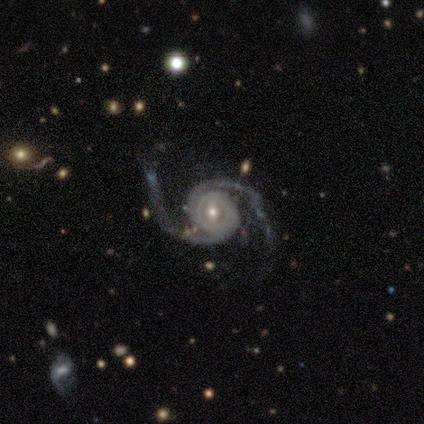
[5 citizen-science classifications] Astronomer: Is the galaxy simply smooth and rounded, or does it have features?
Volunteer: featured or disk — 100%.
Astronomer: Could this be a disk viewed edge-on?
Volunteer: no — 100%.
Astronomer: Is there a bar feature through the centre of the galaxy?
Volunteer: weak — 40%, tied with no at 40%.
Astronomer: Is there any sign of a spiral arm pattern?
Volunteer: yes — 100%.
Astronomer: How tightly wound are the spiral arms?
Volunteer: medium — 40%, tied with loose at 40%.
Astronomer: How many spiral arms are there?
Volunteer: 2 — 80%.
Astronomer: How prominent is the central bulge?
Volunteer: small — 60%.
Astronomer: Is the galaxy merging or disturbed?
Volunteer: none — 60%.